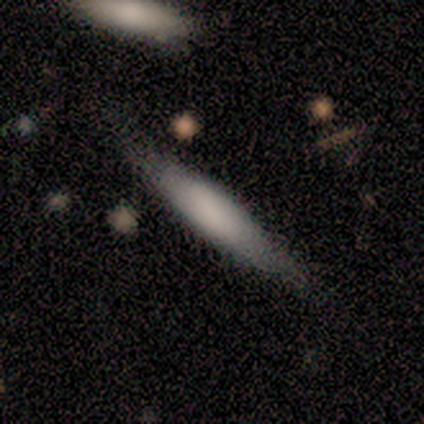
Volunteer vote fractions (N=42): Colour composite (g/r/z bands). It shows a smooth galaxy with no disk features (67%) that is cigar-shaped (71%). Merging: none (64%).